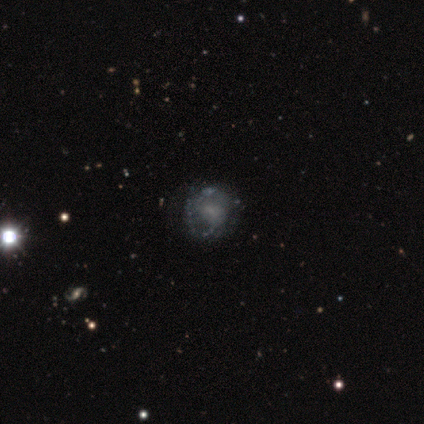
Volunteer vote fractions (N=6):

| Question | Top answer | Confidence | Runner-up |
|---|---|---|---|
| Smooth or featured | featured or disk | 83% | star or artifact (17%) |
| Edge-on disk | no | 100% | — |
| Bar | no | 80% | weak (20%) |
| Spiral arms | no | 60% | yes (40%) |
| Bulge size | none | 60% | small (40%) |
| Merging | none | 60% | minor disturbance (20%) |